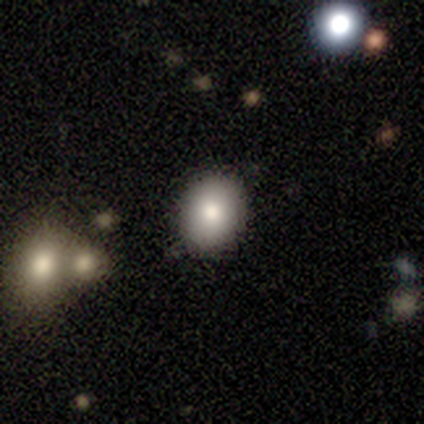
A smooth galaxy with no disk features (80%) that is in between round and cigar-shaped (75%). Merging: none (80%).